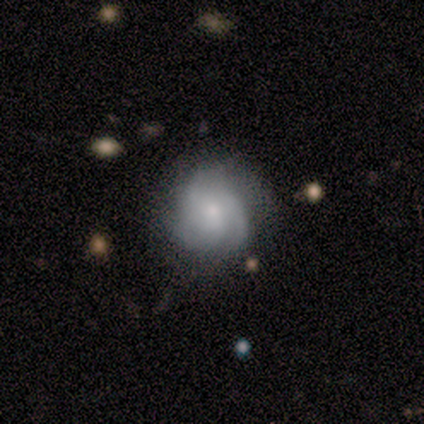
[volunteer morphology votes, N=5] Q: Smooth or featured?
A: smooth (80%); runner-up: featured or disk (20%)
Q: How rounded?
A: round (75%); runner-up: cigar-shaped (25%)
Q: Merging?
A: none (60%); runner-up: minor disturbance (40%)